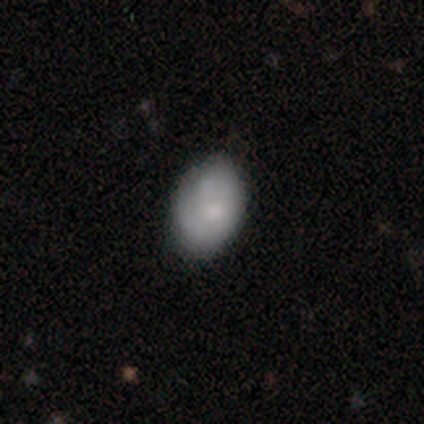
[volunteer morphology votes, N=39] smooth 67%, featured or disk 28%, star or artifact 5%. Down the decision tree: how rounded — in between (88%); merging — none (59%).